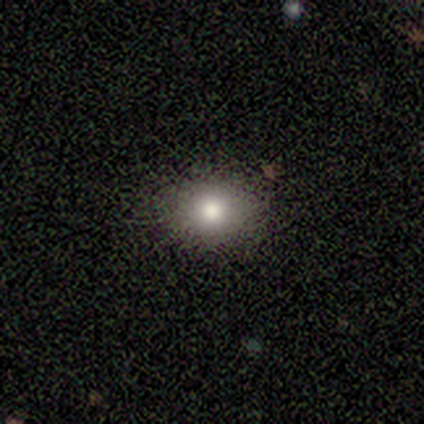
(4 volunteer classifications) Smooth or featured? smooth (100%)
How rounded? round (75%)
Merging? none (100%)